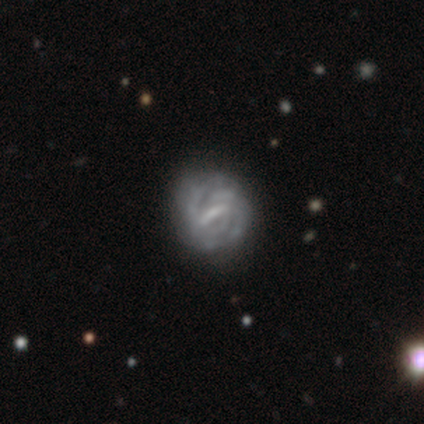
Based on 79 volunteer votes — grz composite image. It shows a featured or disk galaxy (89%) with a strong bar (60%), tight (75%) spiral arms (84%) and no central bulge (40%). Merging: none (37%).